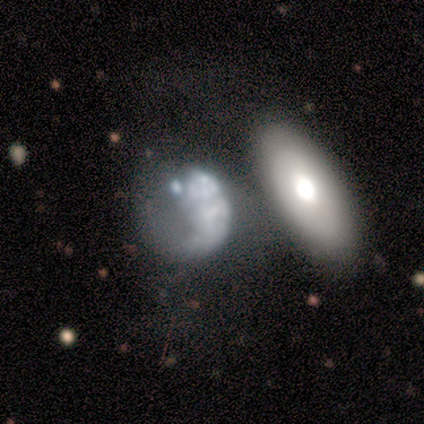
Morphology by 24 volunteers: Smooth or featured? featured or disk (58%)
Edge-on disk? no (93%)
Bar? no (92%)
Spiral arms? no (92%)
Bulge size? none (85%)
Merging? merger (40%)